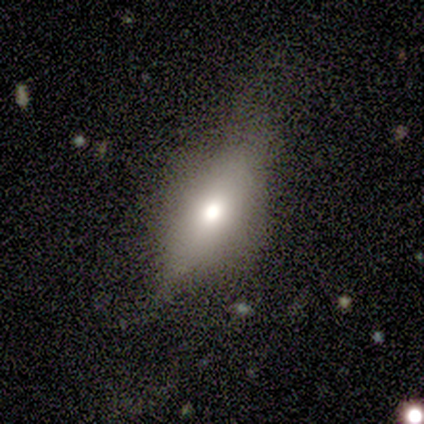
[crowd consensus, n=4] Morphology: type=smooth (50%, tied with star or artifact); roundness=in between (100%); merging=none (50%, tied with major disturbance).